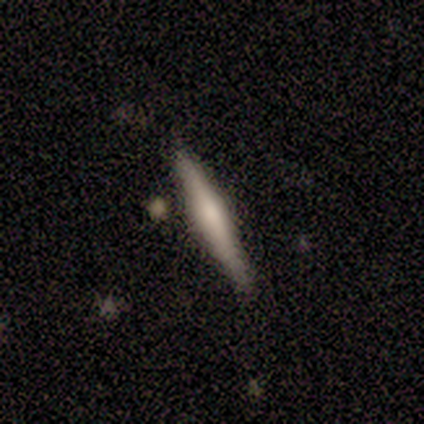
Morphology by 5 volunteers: Smooth or featured: smooth — 40% (tied with featured or disk — 40%)
How rounded: cigar-shaped — 100%
Merging: none — 100%